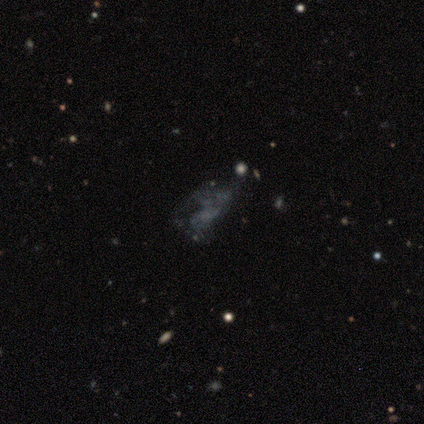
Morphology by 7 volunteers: Smooth or featured? 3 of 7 (43%, tied with star or artifact) said featured or disk. Edge-on disk? 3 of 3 (100%) said no. Bar? 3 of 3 (100%) said no. Spiral arms? 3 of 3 (100%) said no. Bulge size? 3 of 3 (100%) said none. Merging? 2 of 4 (50%, tied with major disturbance) said none.